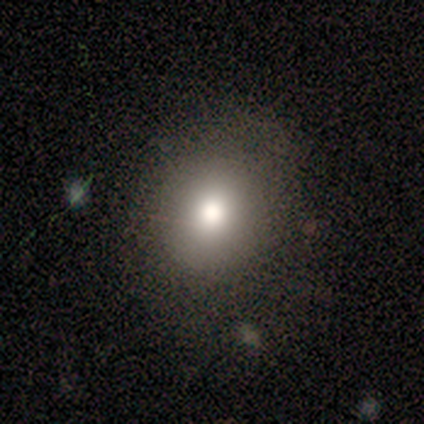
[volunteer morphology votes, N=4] A smooth galaxy with no disk features (100%) that is round (50%, tied with in between). Merging: none (50%).